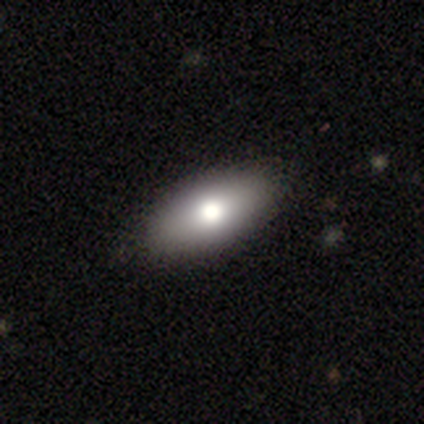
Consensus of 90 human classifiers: Smooth or featured? 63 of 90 (70%) said smooth. How rounded? 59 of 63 (94%) said in between. Merging? 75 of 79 (95%) said none.